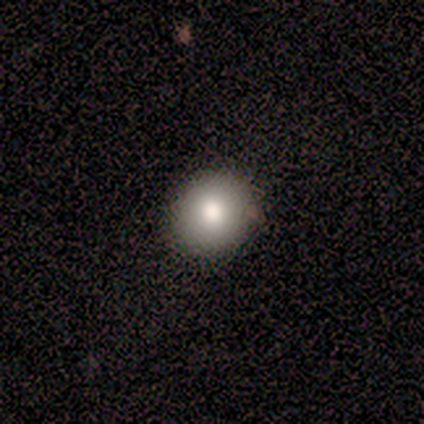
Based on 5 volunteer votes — Morphology: type=smooth (100%); roundness=round (100%); merging=none (100%).